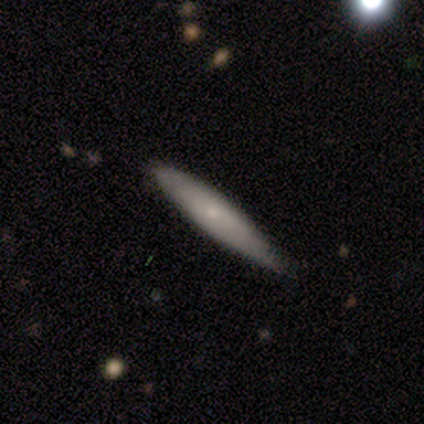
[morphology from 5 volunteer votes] type=smooth (60%); roundness=cigar-shaped (67%); merging=none (100%).